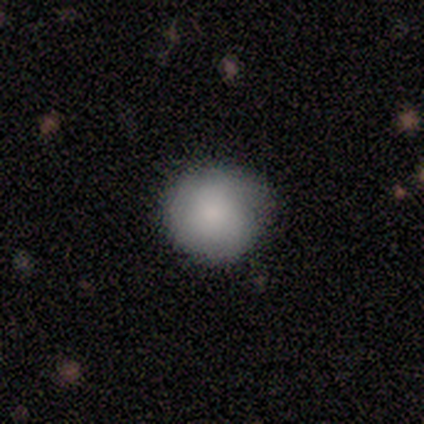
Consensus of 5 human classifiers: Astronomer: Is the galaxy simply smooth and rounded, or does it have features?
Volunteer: smooth — 80%.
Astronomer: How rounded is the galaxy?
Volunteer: round — 75%.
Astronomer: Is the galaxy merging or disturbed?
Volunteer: minor disturbance — 80%.